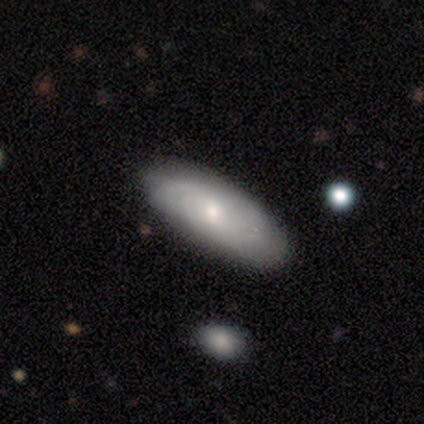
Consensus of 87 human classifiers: A featured or disk galaxy (51%) with no bar (62%), tight (79%) spiral arms (100%) and a small central bulge (56%).

Vote fractions:
- Smooth or featured? featured or disk: 51% / smooth: 43% / star or artifact: 7%
- Edge-on disk? no: 77% / yes: 23%
- Bar? no: 62% / weak: 35% / strong: 3%
- Spiral arms? yes: 100% / no: 0%
- Spiral winding? tight: 79% / medium: 15% / loose: 6%
- Spiral arm count? can't tell: 71% / 2: 18% / 3: 6% / 1: 3% / 4: 3% / more than 4: 0%
- Bulge size? small: 56% / moderate: 41% / dominant: 3% / large: 0% / none: 0%
- Merging? none: 84% / minor disturbance: 14% / major disturbance: 2% / merger: 0%